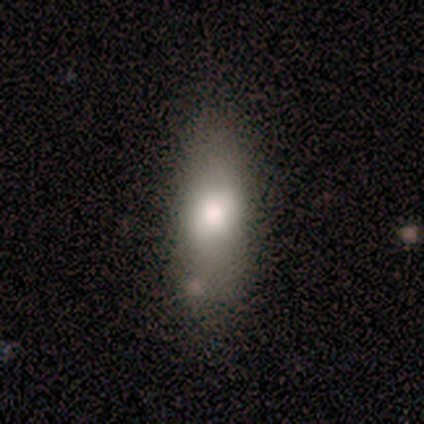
smooth-or-featured: smooth: 75% | star or artifact: 25% | featured or disk: 0%
  how-rounded: in between: 67% | cigar-shaped: 33% | round: 0%
  merging: none: 67% | major disturbance: 33% | minor disturbance: 0% | merger: 0%